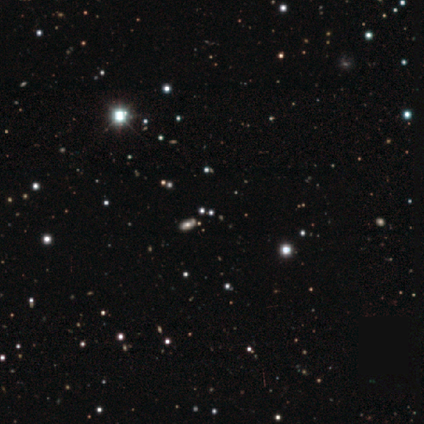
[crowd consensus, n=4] Smooth or featured? 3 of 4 (75%) said smooth. How rounded? 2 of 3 (67%) said cigar-shaped. Merging? 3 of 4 (75%) said none.